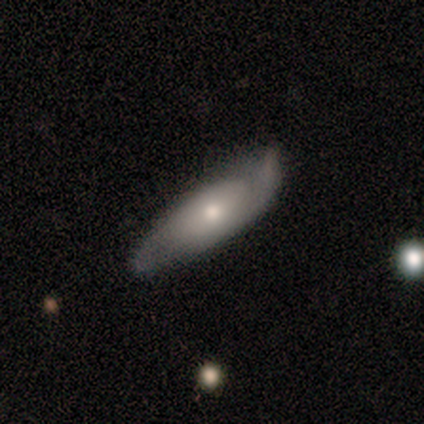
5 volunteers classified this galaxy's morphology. Smooth or featured? 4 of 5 (80%) said featured or disk. Edge-on disk? 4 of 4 (100%) said no. Bar? 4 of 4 (100%) said no. Spiral arms? 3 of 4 (75%) said yes. Spiral winding? 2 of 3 (67%) said loose. Spiral arm count? 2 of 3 (67%) said 2. Bulge size? 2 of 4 (50%, tied with small) said moderate. Merging? 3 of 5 (60%) said minor disturbance.